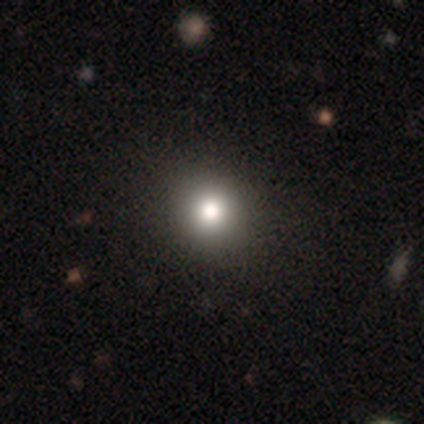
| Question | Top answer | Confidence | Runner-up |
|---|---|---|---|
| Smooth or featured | smooth | 50% | featured or disk (25%) |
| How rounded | round | 100% | — |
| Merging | none | 100% | — |